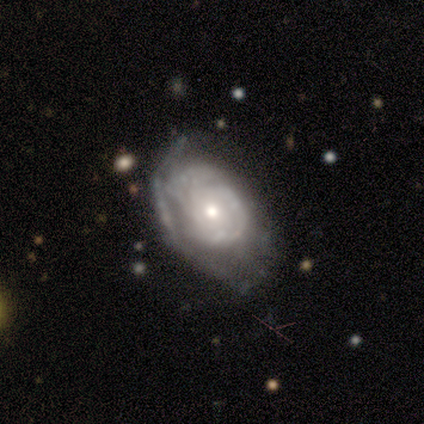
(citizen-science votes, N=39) smooth_or_featured: featured or disk (p=0.85) [alt: smooth p=0.13]
disk_edge_on: no (p=0.94) [alt: yes p=0.06]
bar: no (p=0.94) [alt: weak p=0.06]
has_spiral_arms: yes (p=0.68) [alt: no p=0.32]
spiral_winding: tight (p=0.62) [alt: medium p=0.19]
spiral_arm_count: can't tell (p=0.62) [alt: 3 p=0.19]
bulge_size: moderate (p=0.61) [alt: small p=0.39]
merging: none (p=0.55) [alt: minor disturbance p=0.26]